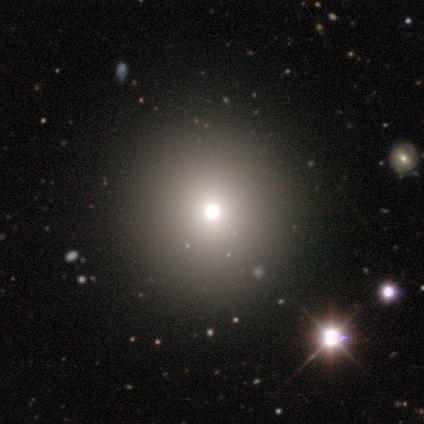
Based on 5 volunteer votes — Q: Smooth or featured?
A: smooth (80%); runner-up: star or artifact (20%)
Q: How rounded?
A: round (100%)
Q: Merging?
A: none (100%)